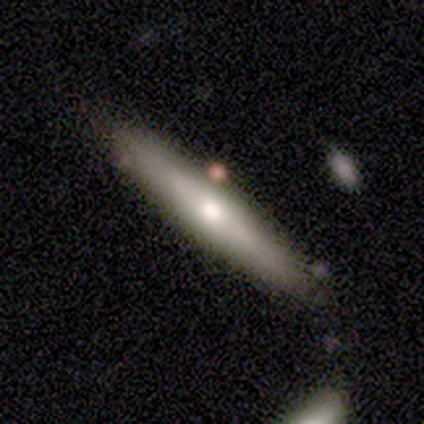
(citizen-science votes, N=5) featured or disk 60%, smooth 20%, star or artifact 20%. Down the decision tree: edge-on disk — yes (67%); edge-on bulge — rounded (100%); merging — none (100%).